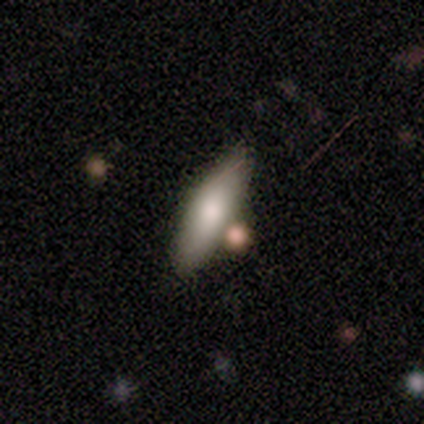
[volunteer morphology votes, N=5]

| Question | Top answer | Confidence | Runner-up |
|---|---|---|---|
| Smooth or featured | smooth | 100% | — |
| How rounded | cigar-shaped | 60% | in between (40%) |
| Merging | none | 40% | tied: minor disturbance (40%) |